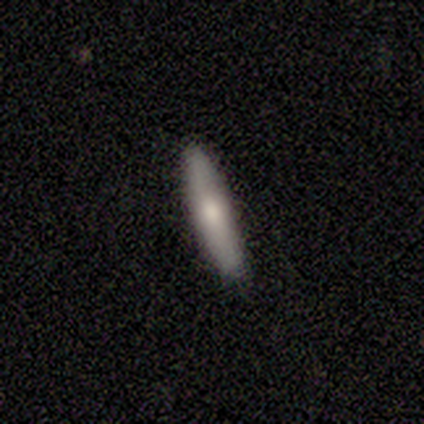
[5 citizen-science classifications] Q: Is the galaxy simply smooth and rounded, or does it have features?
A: featured or disk — 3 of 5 (60%).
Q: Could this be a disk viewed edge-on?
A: yes — 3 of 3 (100%).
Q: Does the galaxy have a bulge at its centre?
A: rounded — 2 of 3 (67%).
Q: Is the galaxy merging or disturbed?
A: none — 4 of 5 (80%).